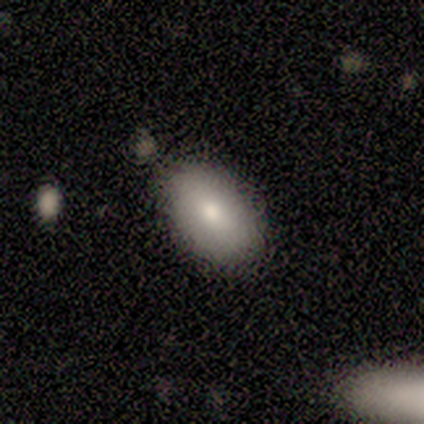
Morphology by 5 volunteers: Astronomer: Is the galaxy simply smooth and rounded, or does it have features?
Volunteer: smooth — 100%.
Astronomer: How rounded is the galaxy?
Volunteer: in between — 100%.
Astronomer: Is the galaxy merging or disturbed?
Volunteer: none — 60%.